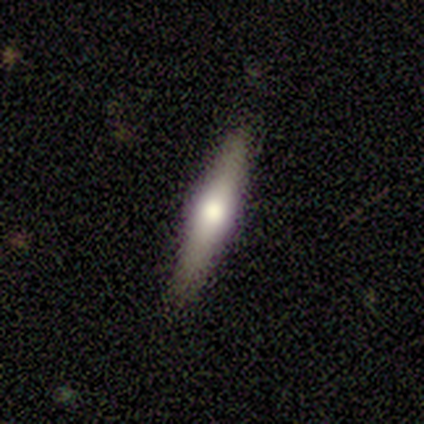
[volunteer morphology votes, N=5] A featured or disk galaxy (60%) viewed edge-on (100%) with a rounded central bulge (100%).

Vote fractions:
- Smooth or featured? featured or disk: 60% / smooth: 40% / star or artifact: 0%
- Edge-on disk? yes: 100% / no: 0%
- Edge-on bulge? rounded: 100% / boxy: 0% / none: 0%
- Merging? none: 80% / minor disturbance: 20% / major disturbance: 0% / merger: 0%